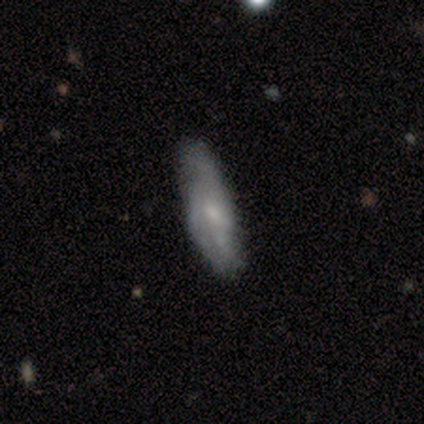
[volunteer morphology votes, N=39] A featured or disk galaxy (59%) with no bar (79%), loose (54%) spiral arms (68%) and a small central bulge (63%).

Vote fractions:
- Smooth or featured? featured or disk: 59% / smooth: 41% / star or artifact: 0%
- Edge-on disk? no: 83% / yes: 17%
- Bar? no: 79% / weak: 21% / strong: 0%
- Spiral arms? yes: 68% / no: 32%
- Spiral winding? loose: 54% / medium: 31% / tight: 15%
- Spiral arm count? can't tell: 46% / 3: 31% / 2: 15% / 1: 8% / 4: 0% / more than 4: 0%
- Bulge size? small: 63% / moderate: 26% / none: 11% / dominant: 0% / large: 0%
- Merging? none: 31% / minor disturbance: 23% / major disturbance: 8% / merger: 0%